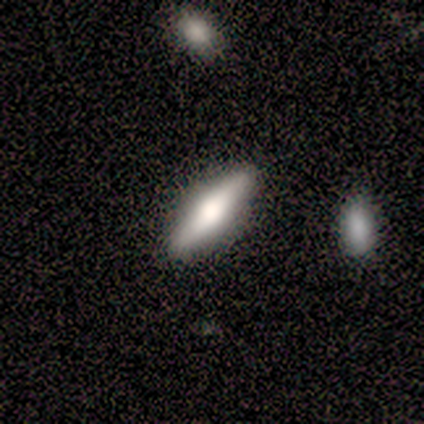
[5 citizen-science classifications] A smooth galaxy with no disk features (80%) that is cigar-shaped (100%). Merging: none (80%).